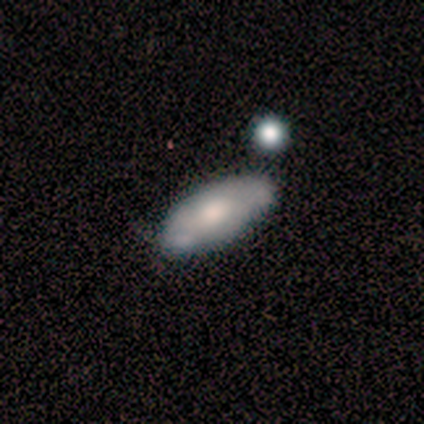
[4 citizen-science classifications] A smooth galaxy with no disk features (50%, tied with featured or disk) that is in between round and cigar-shaped (100%).

Vote fractions:
- Smooth or featured? smooth: 50% (tied) / featured or disk: 50% (tied) / star or artifact: 0%
- How rounded? in between: 100% / round: 0% / cigar-shaped: 0%
- Merging? minor disturbance: 50% / none: 25% / merger: 25% / major disturbance: 0%